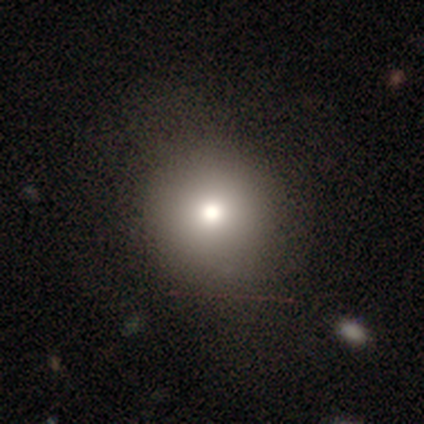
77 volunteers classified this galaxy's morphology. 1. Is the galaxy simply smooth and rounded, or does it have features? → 82% smooth, 13% star or artifact, 5% featured or disk.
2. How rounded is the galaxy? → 89% round, 11% in between, 0% cigar-shaped.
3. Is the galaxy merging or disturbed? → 42% none, 16% minor disturbance, 1% major disturbance, 0% merger.